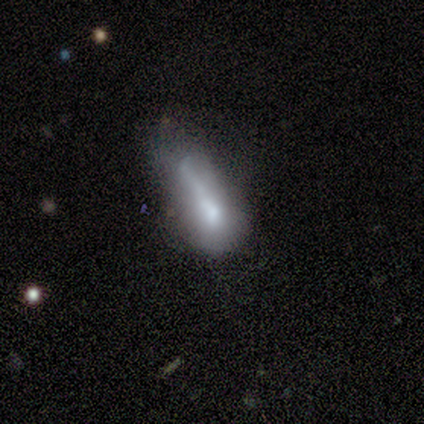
Volunteers were most divided on "how rounded" (2-way tie): in between: 40%, cigar-shaped: 40%, round: 20%. More confident: smooth or featured — smooth (62%); merging — major disturbance (62%).